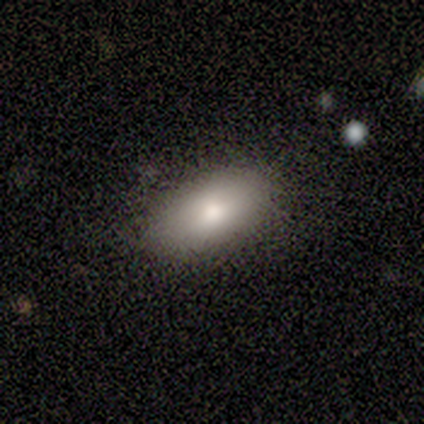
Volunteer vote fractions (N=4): This is possibly a smooth galaxy (50%). How rounded: clearly in between (100%). Merging: likely none (67%).